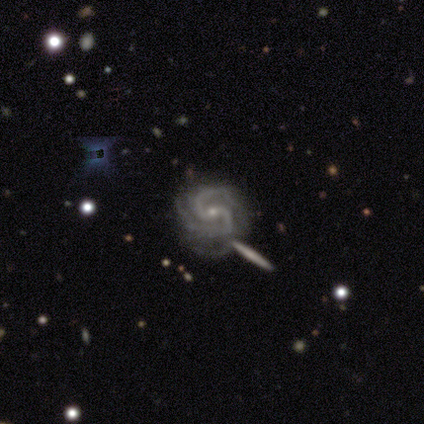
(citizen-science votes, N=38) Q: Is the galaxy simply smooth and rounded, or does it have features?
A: featured or disk — 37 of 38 (97%).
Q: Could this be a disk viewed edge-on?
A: no — 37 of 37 (100%).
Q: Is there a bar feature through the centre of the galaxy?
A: strong — 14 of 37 (38%).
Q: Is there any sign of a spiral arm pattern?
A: yes — 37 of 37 (100%).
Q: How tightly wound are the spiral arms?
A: tight — 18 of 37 (49%).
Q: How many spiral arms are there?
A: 2 — 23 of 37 (62%).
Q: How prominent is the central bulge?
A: small — 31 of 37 (84%).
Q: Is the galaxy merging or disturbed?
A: none — 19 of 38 (50%).